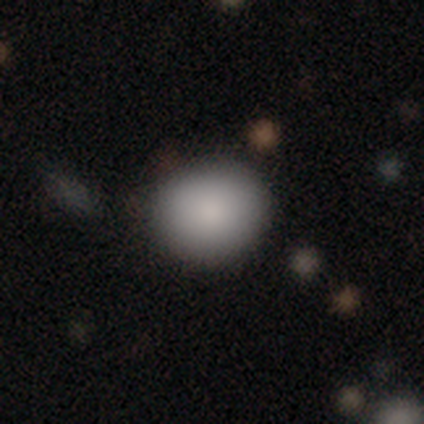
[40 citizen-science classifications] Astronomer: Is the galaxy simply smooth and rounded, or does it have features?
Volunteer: smooth — 88%.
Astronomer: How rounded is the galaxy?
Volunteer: round — 89%.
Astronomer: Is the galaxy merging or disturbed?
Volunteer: none — 89%.